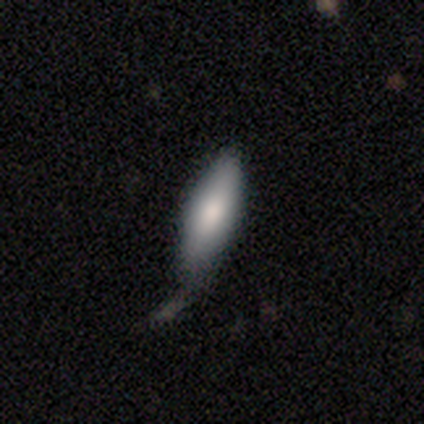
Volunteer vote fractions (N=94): smooth 73%, featured or disk 22%, star or artifact 4%. Down the decision tree: how rounded — in between (51%); merging — minor disturbance (43%).